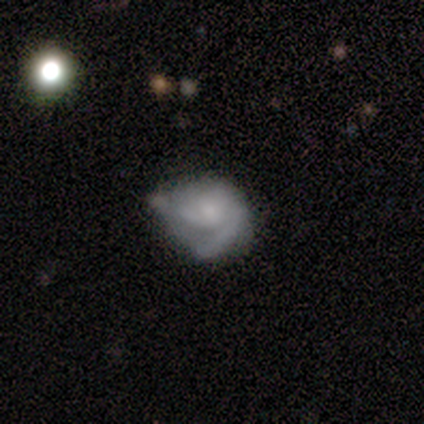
This is likely a featured or disk galaxy (60%). It is likely not viewed edge-on (67%). Bar: clearly no (100%). Spiral arm pattern: clearly yes (100%). Spiral arm count: possibly 2 (50%, tied with can't tell). Spiral winding: clearly medium (100%). Central bulge: clearly small (100%). Merging: likely minor disturbance (60%).